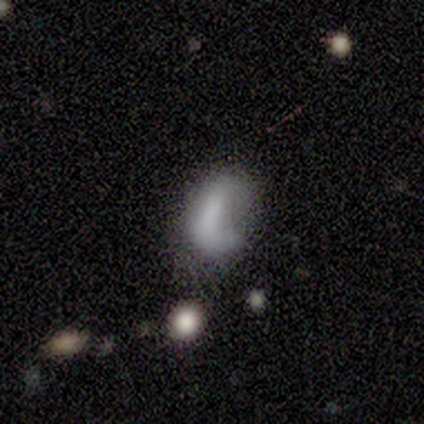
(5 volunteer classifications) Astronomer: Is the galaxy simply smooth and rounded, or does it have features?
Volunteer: smooth — 80%.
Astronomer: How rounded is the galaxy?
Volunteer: in between — 100%.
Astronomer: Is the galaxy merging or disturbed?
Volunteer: minor disturbance — 60%.